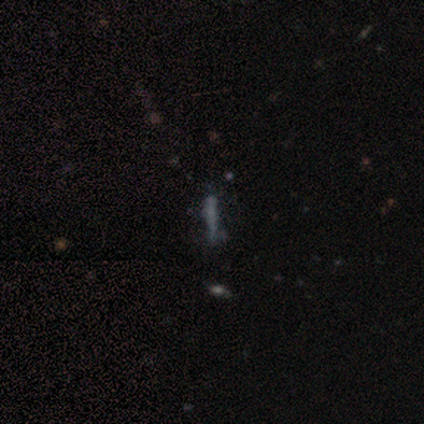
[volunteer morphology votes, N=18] A smooth galaxy with no disk features (67%) that is cigar-shaped (100%). Merging: none (67%).